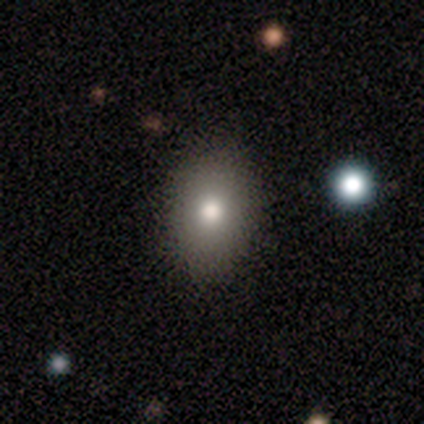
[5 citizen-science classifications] A smooth galaxy with no disk features (60%) that is in between round and cigar-shaped (100%).

Vote fractions:
- Smooth or featured? smooth: 60% / featured or disk: 40% / star or artifact: 0%
- How rounded? in between: 100% / round: 0% / cigar-shaped: 0%
- Merging? none: 80% / major disturbance: 20% / minor disturbance: 0% / merger: 0%